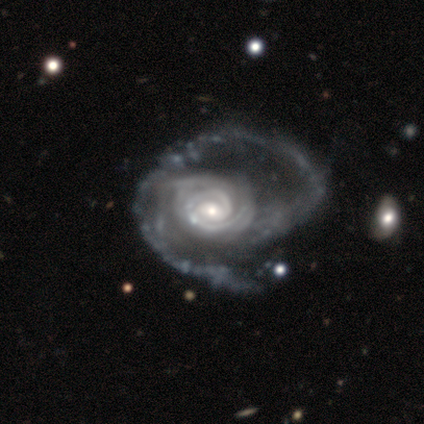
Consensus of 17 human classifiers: smooth_or_featured: featured or disk (p=1.00)
disk_edge_on: no (p=1.00)
bar: weak (p=0.53) [alt: no p=0.29]
has_spiral_arms: yes (p=1.00)
spiral_winding: tight (p=0.65) [alt: loose p=0.24]
spiral_arm_count: 2 (p=0.41) [tied with: can't tell p=0.41]
bulge_size: small (p=0.59) [alt: moderate p=0.35]
merging: major disturbance (p=0.65) [alt: none p=0.24]